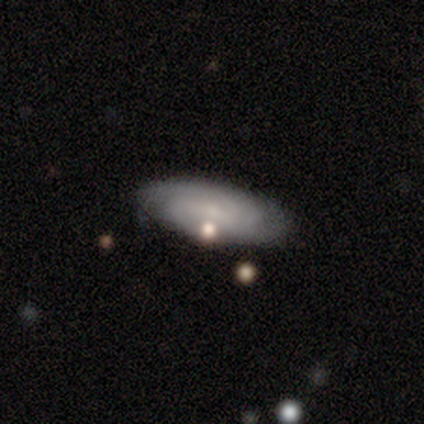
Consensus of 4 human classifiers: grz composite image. It shows a smooth galaxy with no disk features (50%, tied with featured or disk) that is in between round and cigar-shaped (50%, tied with cigar-shaped). Merging: none (75%).